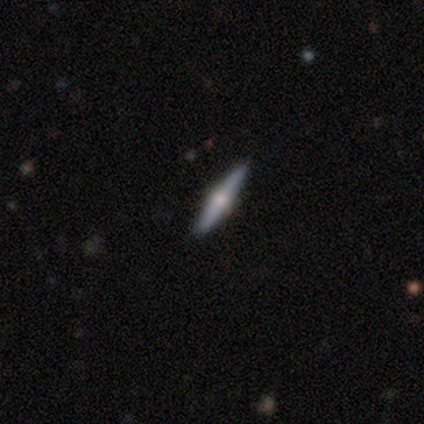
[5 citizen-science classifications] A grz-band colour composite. It shows a featured or disk galaxy (60%) viewed edge-on (100%) with a rounded central bulge (100%). Merging: none (80%).